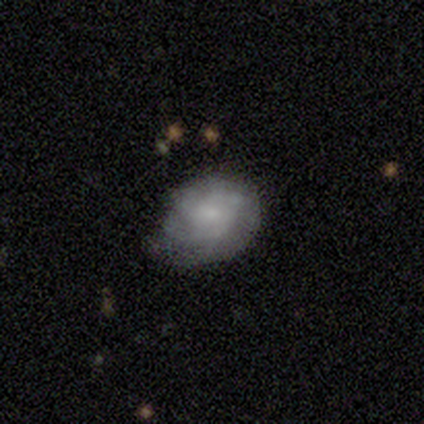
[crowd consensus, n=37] Morphology: type=smooth (62%); roundness=in between (57%); merging=none (54%).